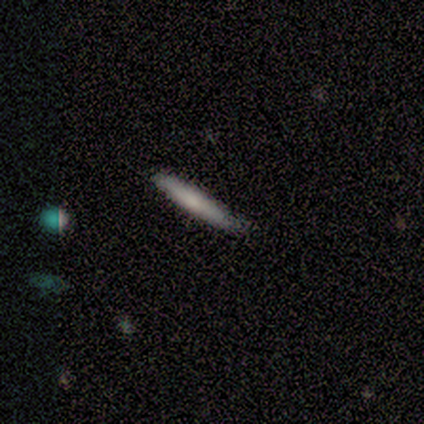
Overall: smooth (60%; featured or disk 20%). How rounded: cigar-shaped (67%; in between 33%). Merging: none (75%).